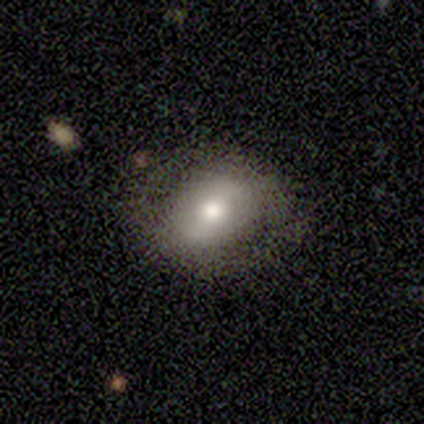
Smooth or featured: smooth — 60% (featured or disk — 20%)
How rounded: round — 67% (in between — 33%)
Merging: none — 75% (minor disturbance — 25%)